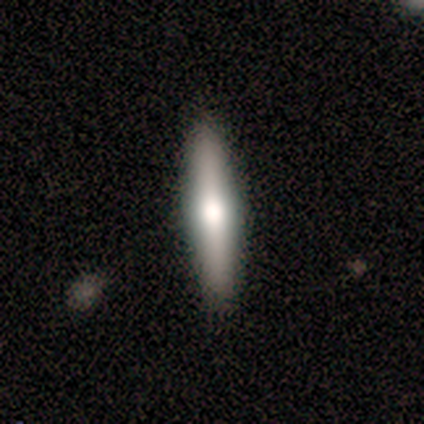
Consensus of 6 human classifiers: smooth-or-featured: featured or disk: 83% | smooth: 17% | star or artifact: 0%
  disk-edge-on: yes: 100% | no: 0%
    edge-on-bulge: rounded: 100% | boxy: 0% | none: 0%
  merging: none: 83% | minor disturbance: 17% | major disturbance: 0% | merger: 0%